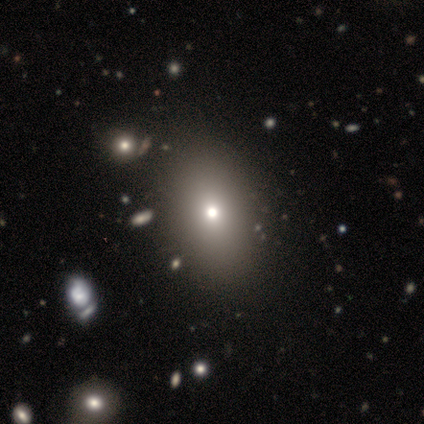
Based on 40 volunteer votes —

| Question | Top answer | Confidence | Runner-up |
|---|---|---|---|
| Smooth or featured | smooth | 68% | star or artifact (18%) |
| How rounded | in between | 89% | round (11%) |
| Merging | none | 88% | minor disturbance (6%) |